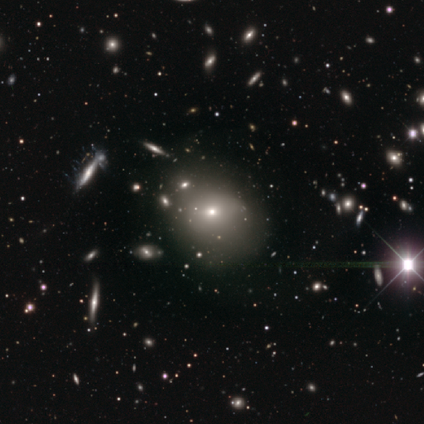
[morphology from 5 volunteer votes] This appears to be a star or artifact, not a galaxy (60%).